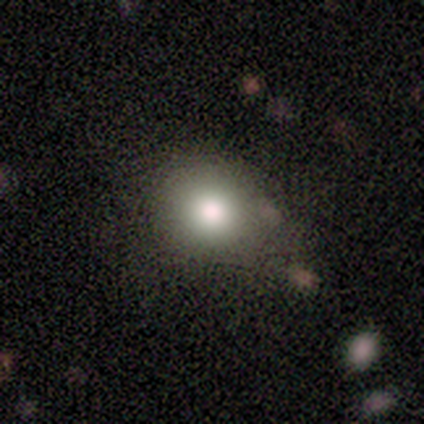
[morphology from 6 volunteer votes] This appears to be a smooth galaxy with no disk features (50%) that is round (67%). Merging: none (60%).